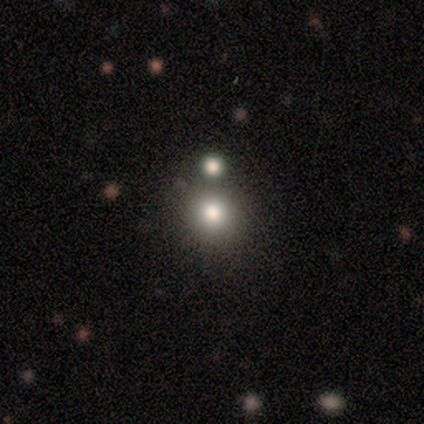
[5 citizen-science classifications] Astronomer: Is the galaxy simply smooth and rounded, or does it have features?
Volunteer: smooth — 80%.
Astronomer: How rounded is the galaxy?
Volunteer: round — 100%.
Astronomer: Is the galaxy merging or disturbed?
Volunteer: none — 75%.